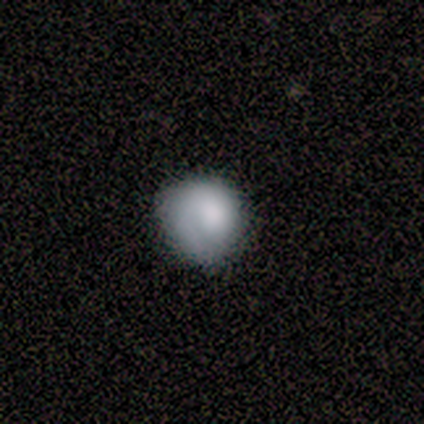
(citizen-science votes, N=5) This is clearly a smooth galaxy (80%). How rounded: likely round (75%). Merging: likely none (60%).